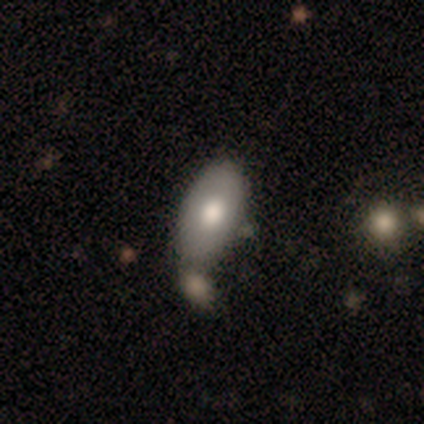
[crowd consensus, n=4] Smooth or featured? smooth (50%, tied with featured or disk)
How rounded? in between (100%)
Merging? merger (100%)